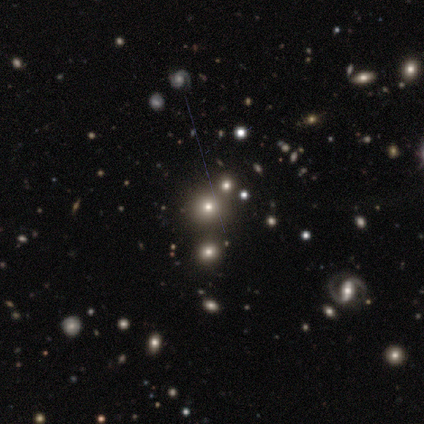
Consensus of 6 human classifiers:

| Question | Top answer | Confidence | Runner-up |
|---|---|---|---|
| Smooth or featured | smooth | 67% | featured or disk (17%) |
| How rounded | round | 75% | in between (25%) |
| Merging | none | 80% | minor disturbance (20%) |